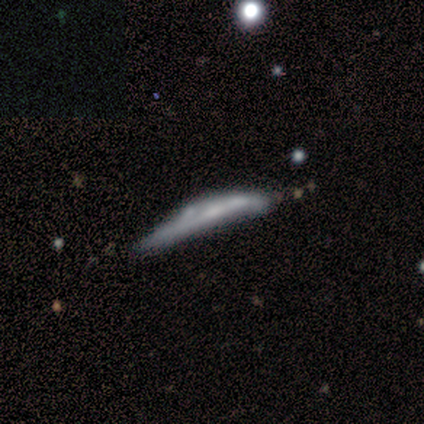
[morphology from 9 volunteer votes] Smooth or featured?
  - featured or disk: 89% *
  - star or artifact: 11%
  - smooth: 0%
Edge-on disk?
  - yes: 88% *
  - no: 12%
Edge-on bulge?
  - none: 57% *
  - rounded: 29%
  - boxy: 14%
Merging?
  - minor disturbance: 38% * (tied)
  - major disturbance: 38% * (tied)
  - merger: 25%
  - none: 0%